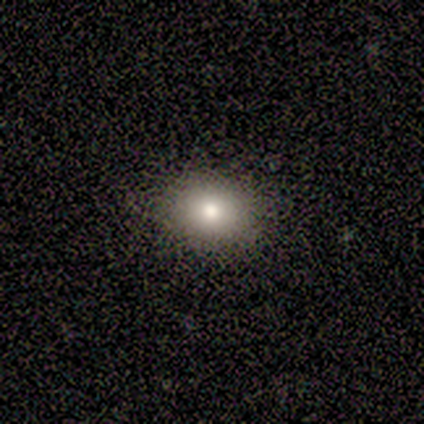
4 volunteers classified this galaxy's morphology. Volunteers were most divided on "how rounded": in between: 75%, round: 25%, cigar-shaped: 0%. More confident: smooth or featured — smooth (100%); merging — none (100%).